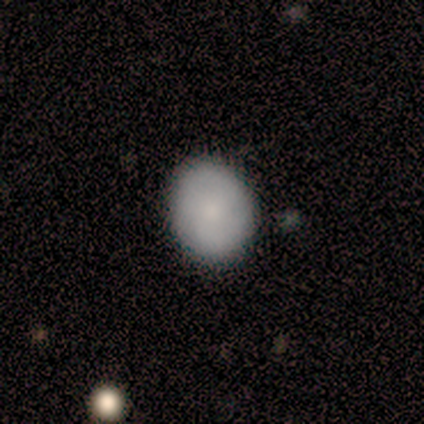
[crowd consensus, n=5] Morphology: type=smooth (60%); roundness=in between (67%); merging=none (100%).